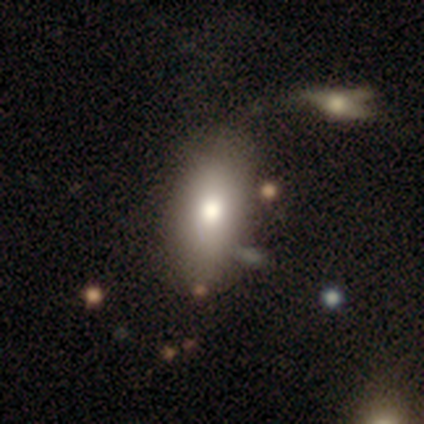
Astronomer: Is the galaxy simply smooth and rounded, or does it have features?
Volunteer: smooth — 100%.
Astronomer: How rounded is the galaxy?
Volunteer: in between — 75%.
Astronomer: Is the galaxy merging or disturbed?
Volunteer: none — 75%.